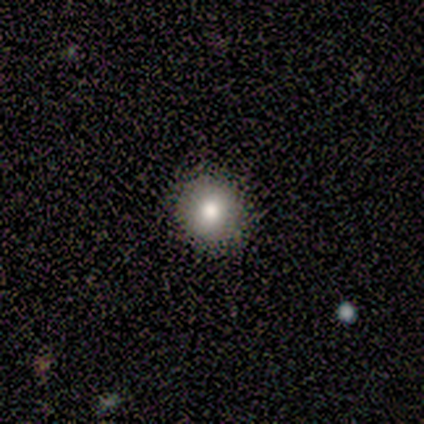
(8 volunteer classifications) Smooth or featured? smooth (75%)
How rounded? round (83%)
Merging? none (67%)